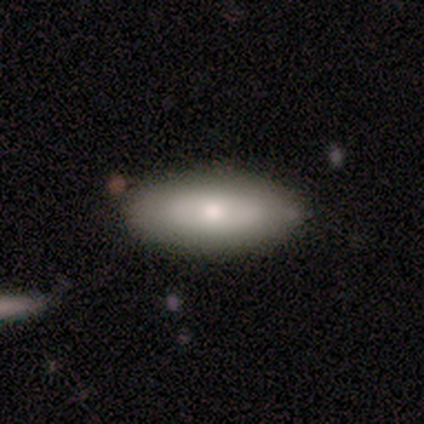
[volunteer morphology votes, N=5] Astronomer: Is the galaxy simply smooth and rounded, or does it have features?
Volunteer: smooth — 60% (runner-up: featured or disk, 40%).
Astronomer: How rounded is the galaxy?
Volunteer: in between — 67%.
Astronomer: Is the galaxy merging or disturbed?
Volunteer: none — 80%.